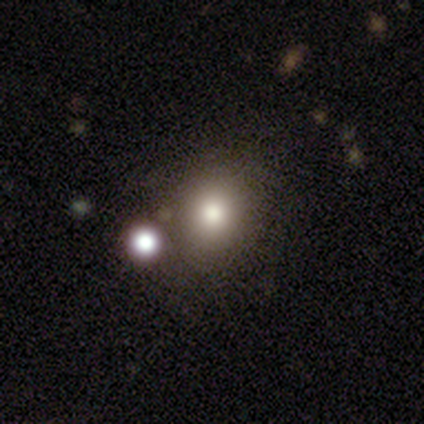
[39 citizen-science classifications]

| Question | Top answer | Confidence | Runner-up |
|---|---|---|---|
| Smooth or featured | smooth | 85% | star or artifact (10%) |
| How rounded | round | 58% | in between (42%) |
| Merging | none | 77% | minor disturbance (14%) |